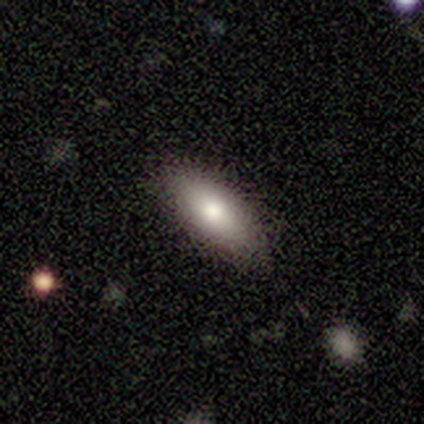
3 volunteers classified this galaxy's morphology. Q: Smooth or featured?
A: smooth (100%)
Q: How rounded?
A: in between (100%)
Q: Merging?
A: none (100%)